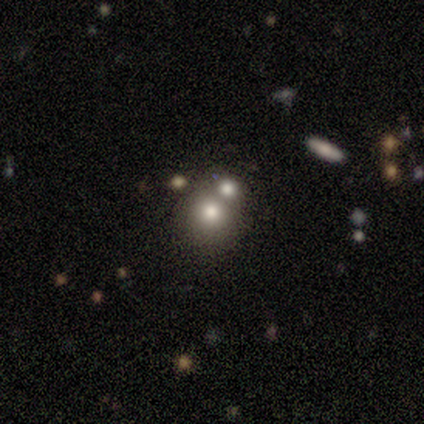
This appears to be a smooth galaxy with no disk features (40%, tied with featured or disk) that is round (100%). Merging: none (75%).